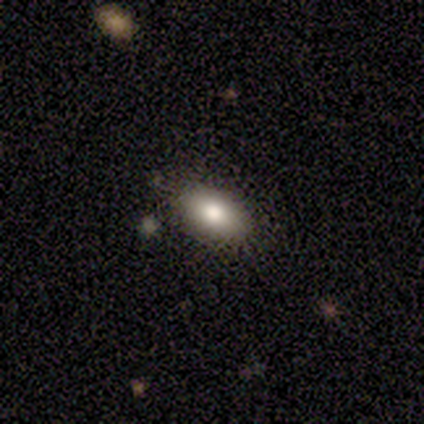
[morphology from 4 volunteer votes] Volunteers were most divided on "how rounded": in between: 67%, cigar-shaped: 33%, round: 0%. More confident: merging — none (100%); smooth or featured — smooth (75%).